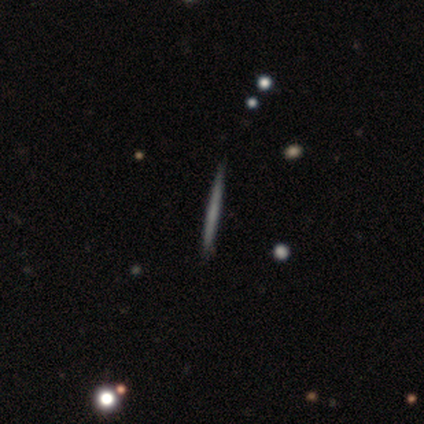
Overall: featured or disk (46%; smooth 43%). Edge-on disk: yes (94%). Edge-on bulge: none (88%). Merging: none (76%).